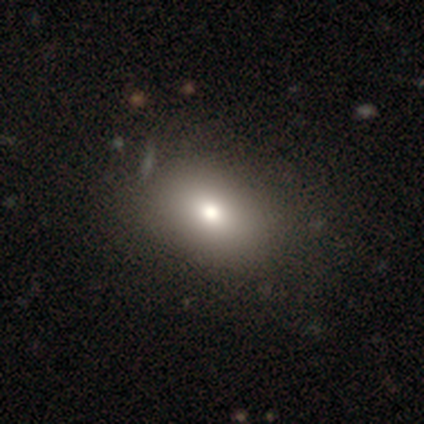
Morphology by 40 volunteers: This is clearly a smooth galaxy (82%). How rounded: clearly in between (94%). Merging: likely none (66%).